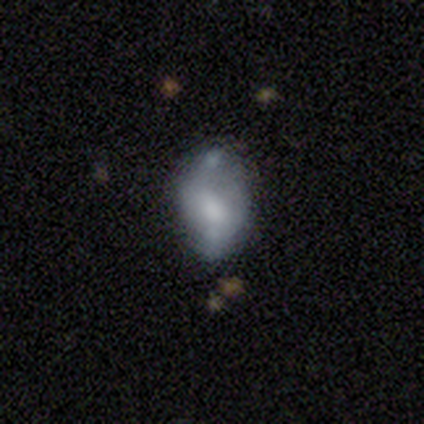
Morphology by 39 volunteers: This is possibly a smooth galaxy (56%). How rounded: clearly in between (100%). Merging: marginally none (43%).